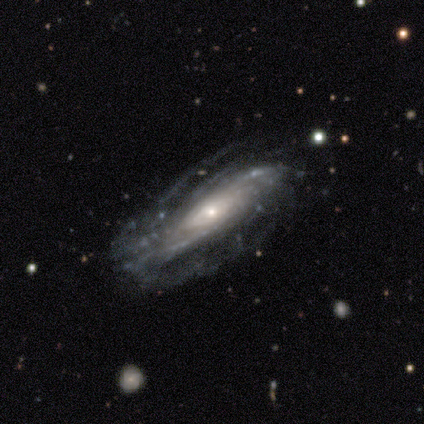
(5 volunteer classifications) Smooth or featured? 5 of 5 (100%) said featured or disk. Edge-on disk? 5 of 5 (100%) said no. Bar? 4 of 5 (80%) said no. Spiral arms? 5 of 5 (100%) said yes. Spiral winding? 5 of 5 (100%) said tight. Spiral arm count? 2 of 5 (40%) said can't tell. Bulge size? 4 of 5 (80%) said small. Merging? 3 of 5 (60%) said none.